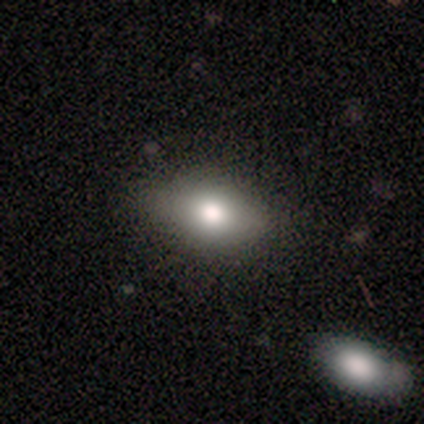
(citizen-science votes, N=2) smooth 50% (tied), featured or disk 50% (tied), star or artifact 0%. Down the decision tree: how rounded — in between (100%); merging — none (50%, tied with major disturbance).